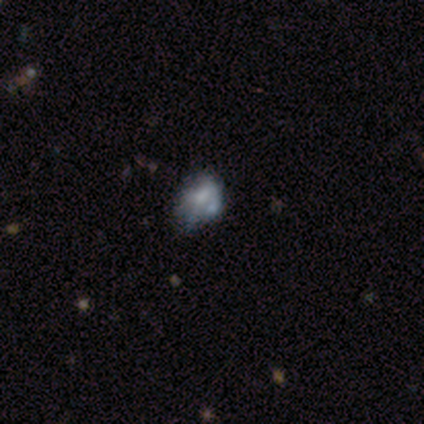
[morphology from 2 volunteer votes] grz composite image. It shows a smooth galaxy with no disk features (50%, tied with featured or disk) that is round (100%). Merging: minor disturbance (50%, tied with major disturbance).